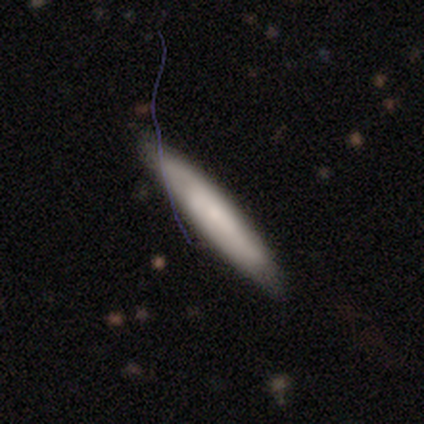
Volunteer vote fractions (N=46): Overall: smooth (65%; featured or disk 30%). How rounded: cigar-shaped (83%). Merging: none (86%).